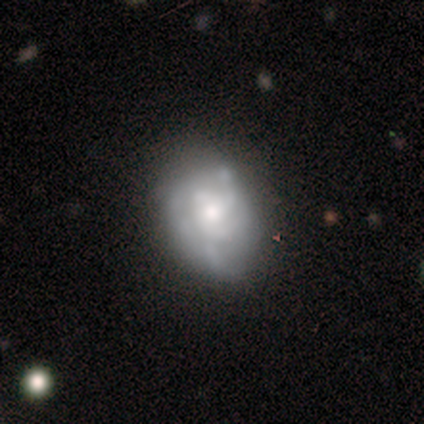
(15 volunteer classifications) A featured or disk galaxy (67%) with no bar (100%), medium (57%) spiral arms (70%) and a moderate central bulge (40%).

Vote fractions:
- Smooth or featured? featured or disk: 67% / smooth: 33% / star or artifact: 0%
- Edge-on disk? no: 100% / yes: 0%
- Bar? no: 100% / strong: 0% / weak: 0%
- Spiral arms? yes: 70% / no: 30%
- Spiral winding? medium: 57% / loose: 29% / tight: 14%
- Spiral arm count? can't tell: 57% / 3: 29% / 4: 14% / 1: 0% / 2: 0% / more than 4: 0%
- Bulge size? moderate: 40% / large: 30% / small: 30% / dominant: 0% / none: 0%
- Merging? none: 40% / minor disturbance: 33% / major disturbance: 20% / merger: 7%